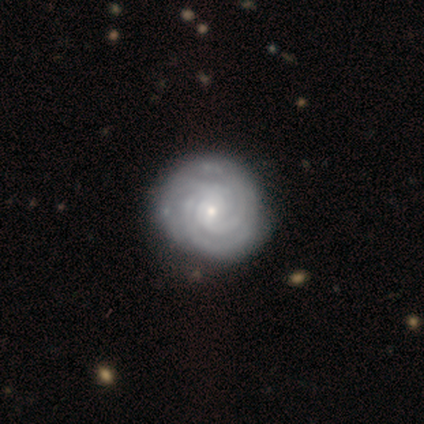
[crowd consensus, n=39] Q: Smooth or featured?
A: featured or disk (95%); runner-up: smooth (5%)
Q: Edge-on disk?
A: no (100%)
Q: Bar?
A: no (76%); runner-up: weak (22%)
Q: Spiral arms?
A: yes (97%); runner-up: no (3%)
Q: Spiral winding?
A: tight (89%); runner-up: medium (11%)
Q: Spiral arm count?
A: 3 (53%); runner-up: can't tell (25%)
Q: Bulge size?
A: small (76%); runner-up: moderate (22%)
Q: Merging?
A: none (59%); runner-up: minor disturbance (15%)